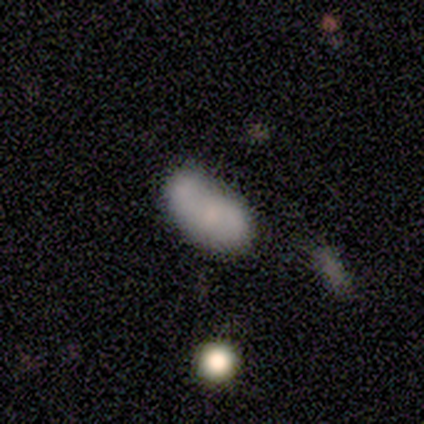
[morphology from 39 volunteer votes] Overall: smooth (64%; featured or disk 36%). How rounded: in between (100%). Merging: none (28%; merger 26%).